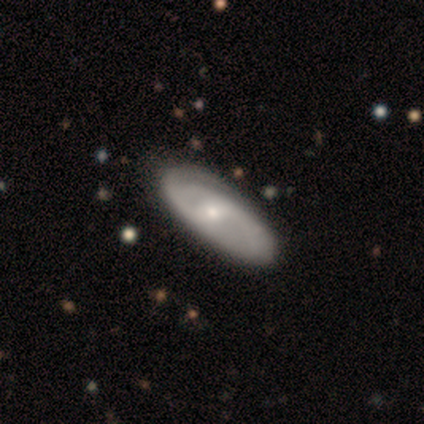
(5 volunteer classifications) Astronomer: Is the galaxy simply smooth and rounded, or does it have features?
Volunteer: featured or disk — 100%.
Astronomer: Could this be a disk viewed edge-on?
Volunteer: no — 80%.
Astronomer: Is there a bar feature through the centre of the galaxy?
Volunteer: weak — 75%.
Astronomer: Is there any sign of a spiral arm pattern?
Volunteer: yes — 75%.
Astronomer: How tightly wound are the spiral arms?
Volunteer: tight — 33%, tied with medium and loose at 33%.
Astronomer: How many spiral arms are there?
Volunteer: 1 — 67%.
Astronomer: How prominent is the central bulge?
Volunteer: moderate — 75%.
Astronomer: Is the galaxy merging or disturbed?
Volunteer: none — 80%.